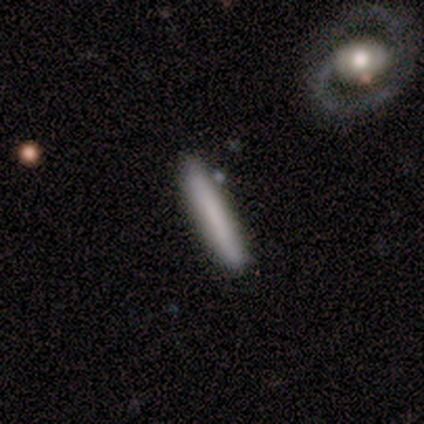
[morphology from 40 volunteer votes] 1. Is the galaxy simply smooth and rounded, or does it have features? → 75% smooth, 18% featured or disk, 8% star or artifact.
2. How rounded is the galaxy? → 90% cigar-shaped, 10% in between, 0% round.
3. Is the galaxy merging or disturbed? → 81% none, 11% minor disturbance, 5% major disturbance, 3% merger.